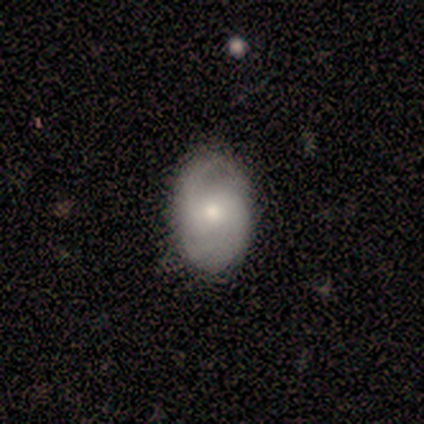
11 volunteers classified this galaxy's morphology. Q: Smooth or featured?
A: smooth (55%); runner-up: featured or disk (45%)
Q: How rounded?
A: in between (83%); runner-up: round (17%)
Q: Merging?
A: none (55%); runner-up: minor disturbance (27%)